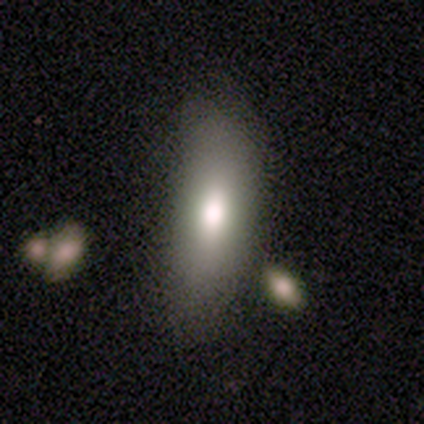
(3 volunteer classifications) A smooth galaxy with no disk features (67%) that is in between round and cigar-shaped (100%).

Vote fractions:
- Smooth or featured? smooth: 67% / featured or disk: 33% / star or artifact: 0%
- How rounded? in between: 100% / round: 0% / cigar-shaped: 0%
- Merging? minor disturbance: 67% / none: 33% / major disturbance: 0% / merger: 0%